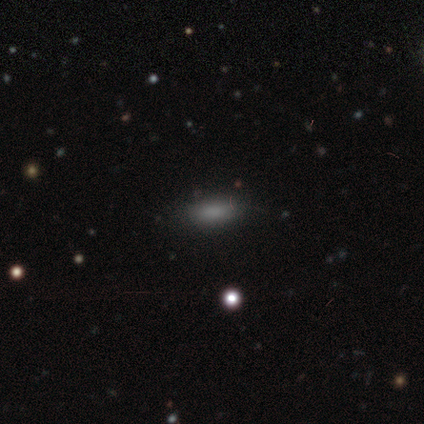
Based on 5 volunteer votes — Smooth or featured: smooth — 80% (star or artifact — 20%)
How rounded: in between — 50% (tied with cigar-shaped — 50%)
Merging: none — 100%